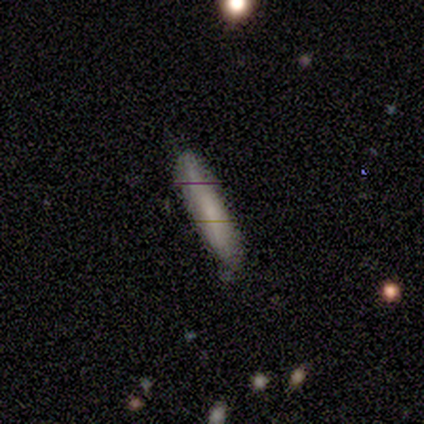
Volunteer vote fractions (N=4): A smooth galaxy with no disk features (50%, tied with featured or disk) that is cigar-shaped (100%). Merging: none (100%).